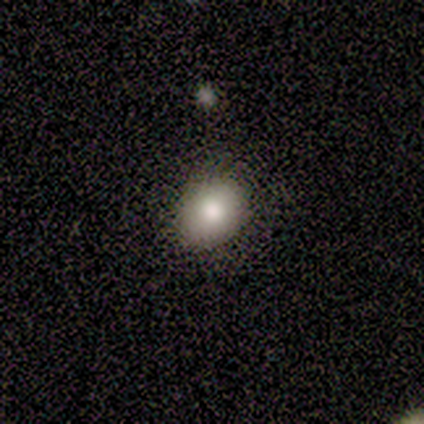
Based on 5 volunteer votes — smooth 60%, star or artifact 40%, featured or disk 0%. Down the decision tree: how rounded — round (67%); merging — none (100%).